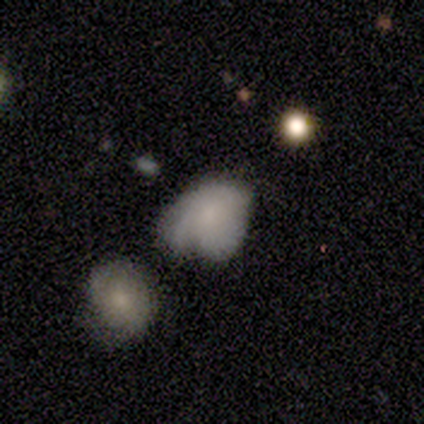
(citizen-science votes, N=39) Smooth or featured? 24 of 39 (62%) said smooth. How rounded? 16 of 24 (67%) said in between. Merging? 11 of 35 (31%, tied with major disturbance) said minor disturbance.